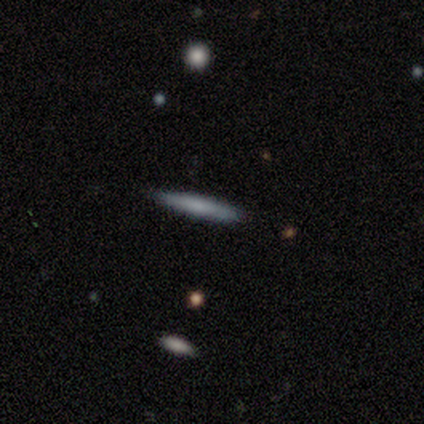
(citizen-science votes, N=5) Overall: smooth (80%). How rounded: cigar-shaped (100%). Merging: none (80%).